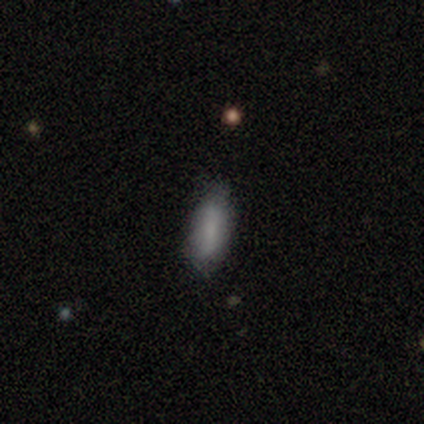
A smooth galaxy with no disk features (90%) that is in between round and cigar-shaped (67%). Merging: none (90%).